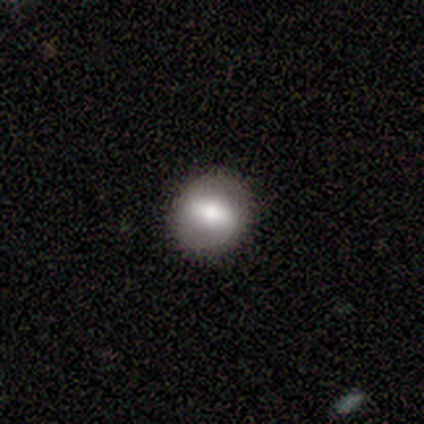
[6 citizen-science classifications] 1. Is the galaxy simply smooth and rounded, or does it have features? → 83% smooth, 17% featured or disk, 0% star or artifact.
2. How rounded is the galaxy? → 80% round, 20% in between, 0% cigar-shaped.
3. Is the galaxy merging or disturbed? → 83% none, 17% minor disturbance, 0% major disturbance, 0% merger.